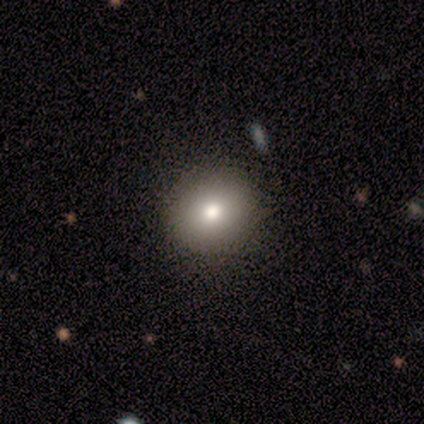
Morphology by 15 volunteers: smooth-or-featured: smooth: 73% | featured or disk: 13% | star or artifact: 13%
  how-rounded: round: 91% | in between: 9% | cigar-shaped: 0%
  merging: none: 100% | minor disturbance: 0% | major disturbance: 0% | merger: 0%